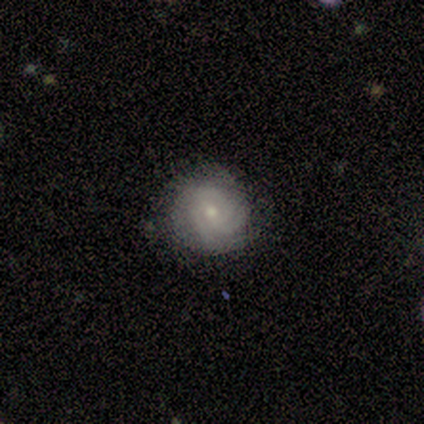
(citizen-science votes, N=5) Volunteers were most divided on "bulge size" (2-way tie): moderate: 50%, small: 50%, dominant: 0%, large: 0%, none: 0%. More confident: edge-on disk — no (100%); merging — none (100%); smooth or featured — featured or disk (80%); spiral arms — yes (75%); spiral winding — tight (67%); spiral arm count — can't tell (67%); bar — no (50%).